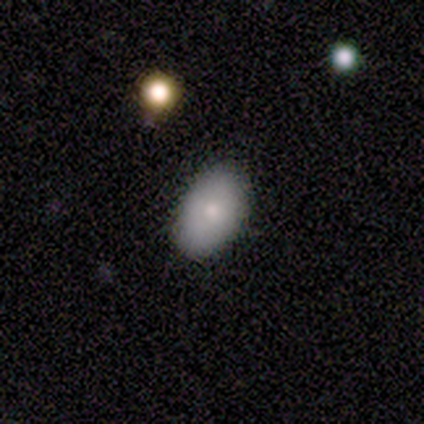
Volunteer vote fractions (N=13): Smooth or featured?
  - smooth: 92% *
  - featured or disk: 8%
  - star or artifact: 0%
How rounded?
  - in between: 100% *
  - round: 0%
  - cigar-shaped: 0%
Merging?
  - none: 100% *
  - minor disturbance: 0%
  - major disturbance: 0%
  - merger: 0%